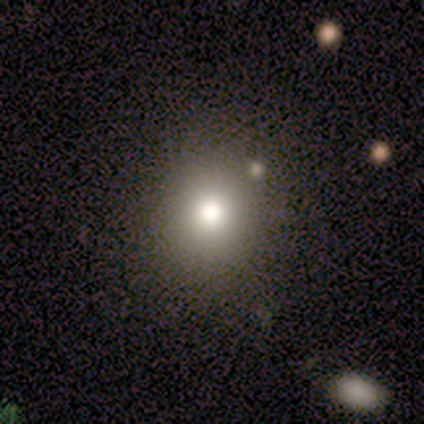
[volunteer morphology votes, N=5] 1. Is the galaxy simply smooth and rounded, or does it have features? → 60% star or artifact, 40% smooth, 0% featured or disk.